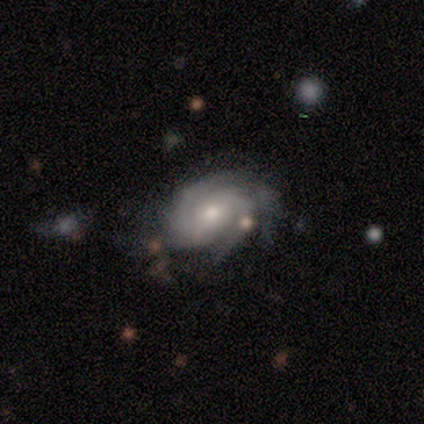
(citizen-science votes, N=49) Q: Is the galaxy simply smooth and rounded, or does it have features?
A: featured or disk — 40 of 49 (82%).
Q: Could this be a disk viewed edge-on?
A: no — 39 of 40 (98%).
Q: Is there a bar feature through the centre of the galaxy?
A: no — 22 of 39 (56%).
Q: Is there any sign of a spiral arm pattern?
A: yes — 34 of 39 (87%).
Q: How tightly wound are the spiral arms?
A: tight — 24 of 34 (71%).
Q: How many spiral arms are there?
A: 2 — 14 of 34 (41%).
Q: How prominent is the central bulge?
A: moderate — 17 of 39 (44%, tied with small).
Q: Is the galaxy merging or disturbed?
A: none — 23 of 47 (49%).